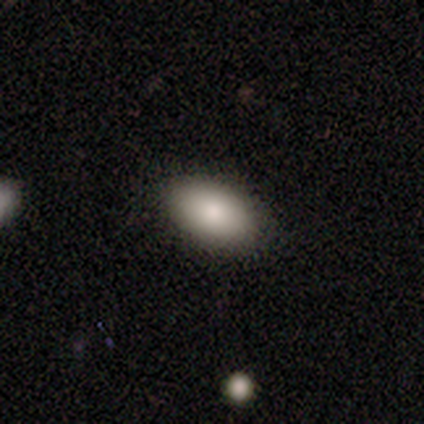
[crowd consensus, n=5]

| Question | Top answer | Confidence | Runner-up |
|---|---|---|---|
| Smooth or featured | smooth | 80% | featured or disk (20%) |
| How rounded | in between | 100% | — |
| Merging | none | 100% | — |